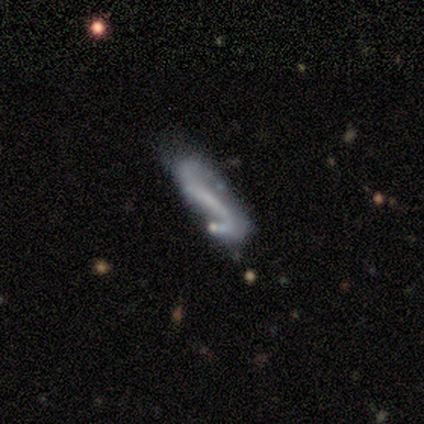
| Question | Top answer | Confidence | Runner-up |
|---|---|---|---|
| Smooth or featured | featured or disk | 85% | star or artifact (10%) |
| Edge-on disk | no | 88% | yes (12%) |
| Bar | strong | 62% | weak (28%) |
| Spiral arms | yes | 97% | no (3%) |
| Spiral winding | loose | 75% | medium (18%) |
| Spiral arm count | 2 | 89% | can't tell (7%) |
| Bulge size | none | 59% | small (31%) |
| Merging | none | 57% | minor disturbance (20%) |